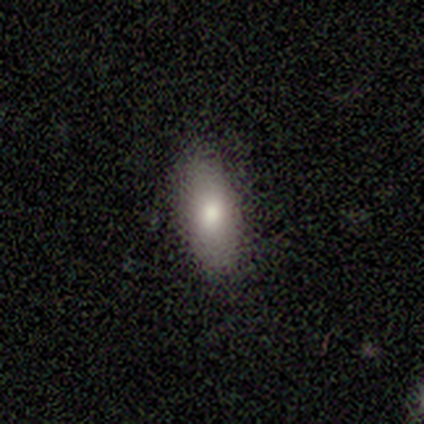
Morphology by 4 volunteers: Smooth or featured? 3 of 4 (75%) said smooth. How rounded? 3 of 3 (100%) said in between. Merging? 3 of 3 (100%) said none.